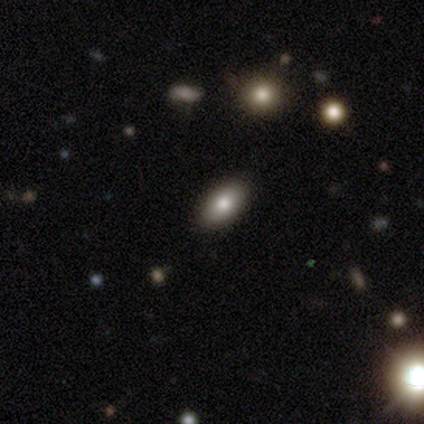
Q: Smooth or featured?
A: smooth (83%); runner-up: star or artifact (17%)
Q: How rounded?
A: in between (100%)
Q: Merging?
A: none (100%)